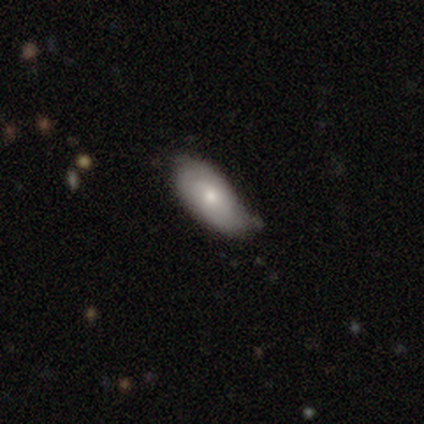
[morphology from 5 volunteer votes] Smooth or featured: smooth — 80% (featured or disk — 20%)
How rounded: in between — 100%
Merging: minor disturbance — 60% (none — 40%)